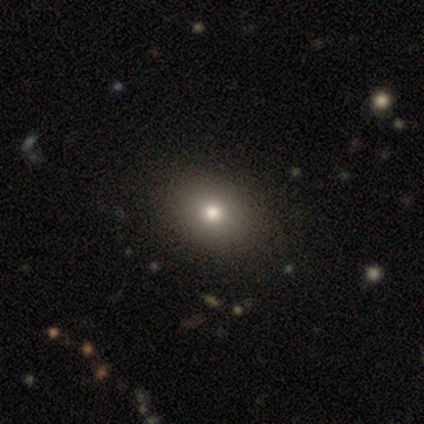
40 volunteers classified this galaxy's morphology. smooth-or-featured: smooth: 68% | star or artifact: 18% | featured or disk: 15%
  how-rounded: in between: 52% | round: 44% | cigar-shaped: 4%
  merging: none: 58% | major disturbance: 6% | minor disturbance: 0% | merger: 0%